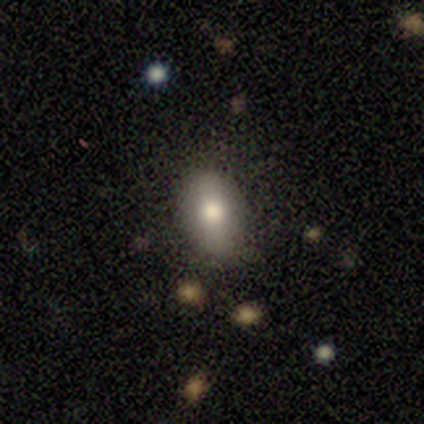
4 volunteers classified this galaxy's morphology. A smooth galaxy with no disk features (75%) that is round (67%).

Vote fractions:
- Smooth or featured? smooth: 75% / featured or disk: 25% / star or artifact: 0%
- How rounded? round: 67% / in between: 33% / cigar-shaped: 0%
- Merging? none: 50% (tied) / minor disturbance: 50% (tied) / major disturbance: 0% / merger: 0%